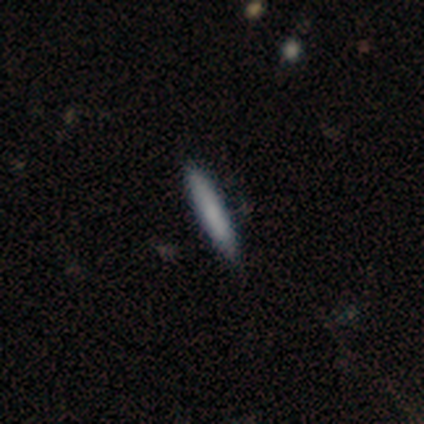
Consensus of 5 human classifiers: Volunteers were most divided on "merging": none: 80%, minor disturbance: 20%, major disturbance: 0%, merger: 0%. More confident: smooth or featured — smooth (100%); how rounded — cigar-shaped (100%).